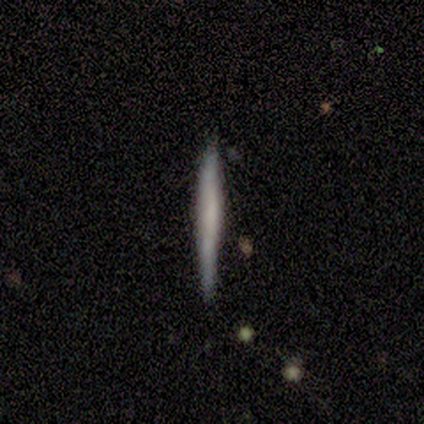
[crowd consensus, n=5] smooth_or_featured: smooth (p=0.80) [alt: featured or disk p=0.20]
how_rounded: cigar-shaped (p=0.75) [alt: round p=0.25]
merging: none (p=1.00)